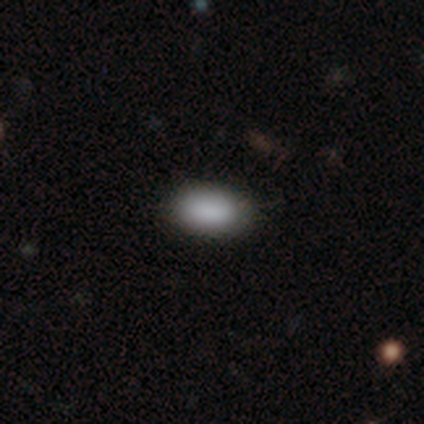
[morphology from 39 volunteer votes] Smooth or featured? 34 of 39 (87%) said smooth. How rounded? 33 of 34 (97%) said in between. Merging? 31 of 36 (86%) said none.